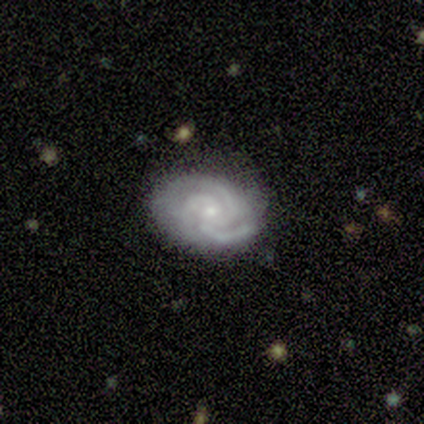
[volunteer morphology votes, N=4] type=featured or disk (75%); edge-on=no (100%); bar=no (100%); spiral arms=yes (100%); winding=tight (67%); arm count=2 (33%, tied with 3 and can't tell); bulge=small (100%); merging=none (50%, tied with minor disturbance).